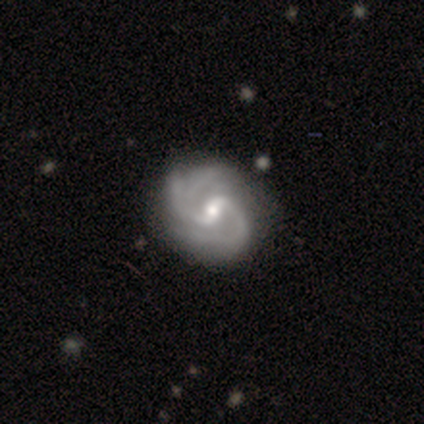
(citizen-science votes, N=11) Volunteers were most divided on "spiral arm count": 2: 50%, 3: 40%, can't tell: 10%, 1: 0%, 4: 0%, more than 4: 0%. More confident: edge-on disk — no (100%); spiral arms — yes (100%); merging — none (100%); smooth or featured — featured or disk (91%); bulge size — small (60%); spiral winding — medium (60%); bar — weak (50%).